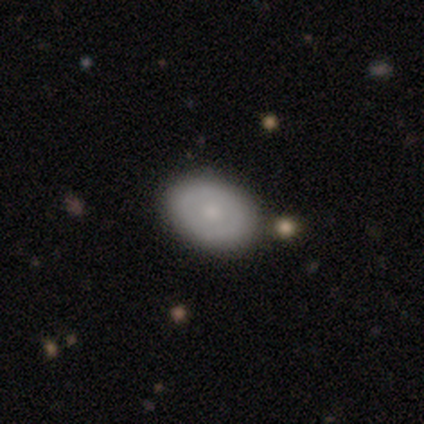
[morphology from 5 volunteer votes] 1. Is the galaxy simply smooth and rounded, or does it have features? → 100% smooth, 0% featured or disk, 0% star or artifact.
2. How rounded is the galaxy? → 100% in between, 0% round, 0% cigar-shaped.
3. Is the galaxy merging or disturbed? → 100% none, 0% minor disturbance, 0% major disturbance, 0% merger.